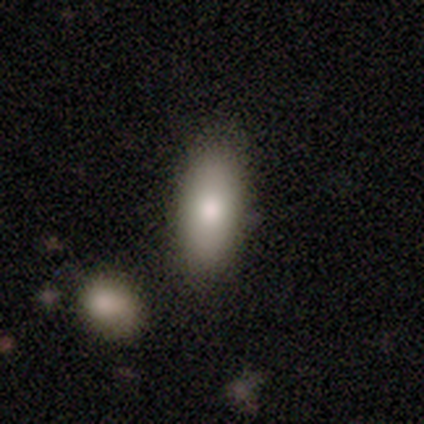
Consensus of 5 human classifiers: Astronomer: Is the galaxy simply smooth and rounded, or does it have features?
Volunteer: smooth — 80%.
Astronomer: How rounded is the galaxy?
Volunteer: in between — 100%.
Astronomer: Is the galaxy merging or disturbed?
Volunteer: none — 100%.